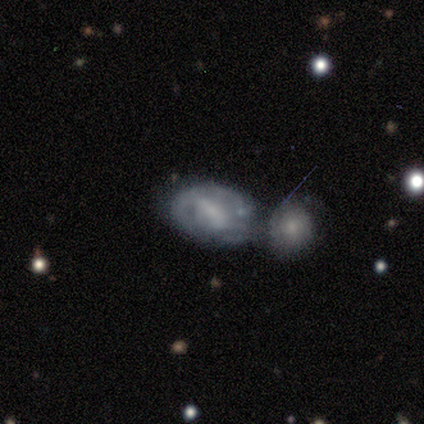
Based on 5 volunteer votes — A featured or disk galaxy (60%) with a weak bar (67%), medium (67%) spiral arms (100%) and a small central bulge (67%). Merging: merger (80%).